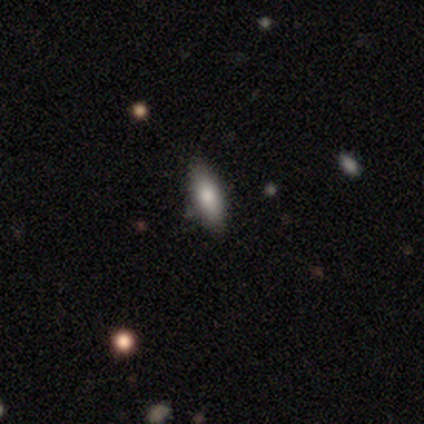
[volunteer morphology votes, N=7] type=smooth (57%); roundness=in between (75%); merging=none (71%).